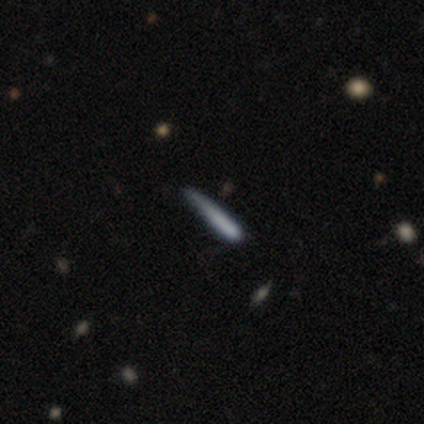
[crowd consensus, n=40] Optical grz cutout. It shows a smooth galaxy with no disk features (50%) that is cigar-shaped (100%). Merging: none (66%).